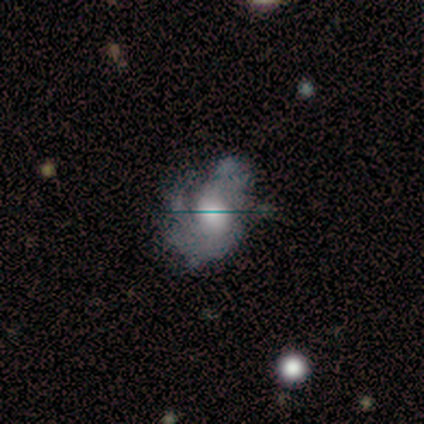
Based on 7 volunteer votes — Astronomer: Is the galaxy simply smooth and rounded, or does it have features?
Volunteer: featured or disk — 71%.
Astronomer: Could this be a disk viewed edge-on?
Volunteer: no — 100%.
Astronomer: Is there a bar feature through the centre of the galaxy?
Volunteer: no — 100%.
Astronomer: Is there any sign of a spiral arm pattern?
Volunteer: yes — 100%.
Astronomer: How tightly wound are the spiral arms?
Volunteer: tight — 40%, tied with loose at 40%.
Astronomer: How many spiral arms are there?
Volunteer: can't tell — 40% (runner-up: 1, 20%).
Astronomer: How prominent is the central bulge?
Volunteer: large — 80%.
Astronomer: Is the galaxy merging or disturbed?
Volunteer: none — 57%.